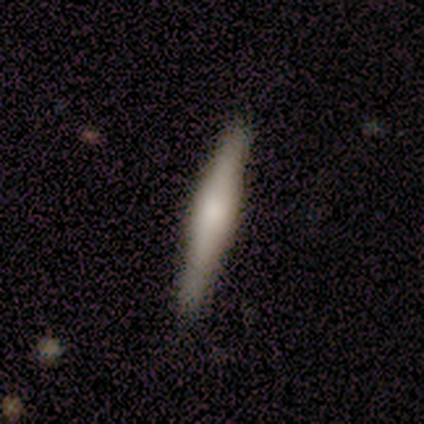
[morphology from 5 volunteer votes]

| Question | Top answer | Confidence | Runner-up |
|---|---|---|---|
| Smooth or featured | featured or disk | 80% | smooth (20%) |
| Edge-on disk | yes | 100% | — |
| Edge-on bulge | boxy | 50% | tied: rounded (50%) |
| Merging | none | 100% | — |